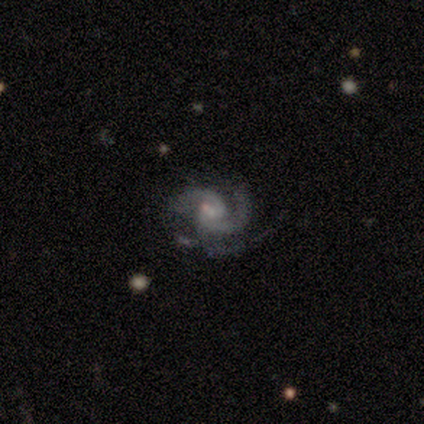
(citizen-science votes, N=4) Q: Smooth or featured?
A: featured or disk (100%)
Q: Edge-on disk?
A: no (100%)
Q: Bar?
A: no (100%)
Q: Spiral arms?
A: yes (100%)
Q: Spiral winding?
A: tight (50%); tied with: medium (50%)
Q: Spiral arm count?
A: 2 (75%); runner-up: 3 (25%)
Q: Bulge size?
A: small (75%); runner-up: moderate (25%)
Q: Merging?
A: none (50%); tied with: minor disturbance (50%)